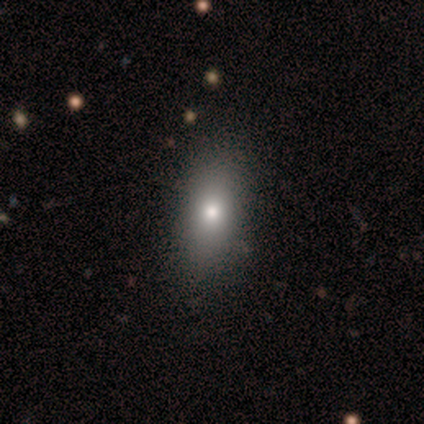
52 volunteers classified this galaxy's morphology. A smooth galaxy with no disk features (92%) that is in between round and cigar-shaped (77%).

Vote fractions:
- Smooth or featured? smooth: 92% / featured or disk: 4% / star or artifact: 4%
- How rounded? in between: 77% / cigar-shaped: 15% / round: 8%
- Merging? none: 84% / minor disturbance: 16% / major disturbance: 0% / merger: 0%